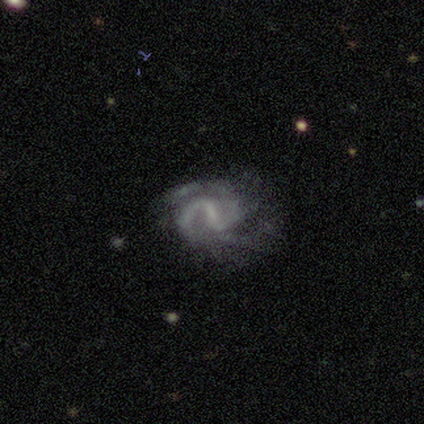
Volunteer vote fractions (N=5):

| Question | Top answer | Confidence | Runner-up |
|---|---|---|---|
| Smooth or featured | featured or disk | 80% | star or artifact (20%) |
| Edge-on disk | no | 100% | — |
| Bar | strong | 50% | tied: weak (50%) |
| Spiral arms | yes | 100% | — |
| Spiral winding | medium | 50% | tight (25%) |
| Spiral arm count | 2 | 100% | — |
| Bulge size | small | 50% | tied: none (50%) |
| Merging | minor disturbance | 50% | none (25%) |